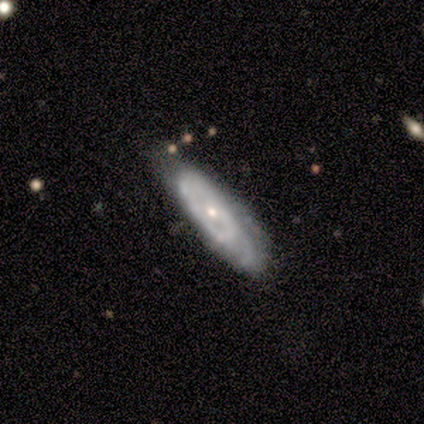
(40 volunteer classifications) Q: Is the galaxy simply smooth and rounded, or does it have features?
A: featured or disk — 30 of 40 (75%).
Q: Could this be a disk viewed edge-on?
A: no — 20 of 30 (67%).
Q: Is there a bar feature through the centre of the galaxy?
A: no — 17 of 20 (85%).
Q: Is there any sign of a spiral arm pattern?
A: yes — 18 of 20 (90%).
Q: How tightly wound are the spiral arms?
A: tight — 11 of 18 (61%).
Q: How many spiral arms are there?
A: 2 — 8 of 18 (44%).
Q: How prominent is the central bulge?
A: small — 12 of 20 (60%).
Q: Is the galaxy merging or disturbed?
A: none — 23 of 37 (62%).